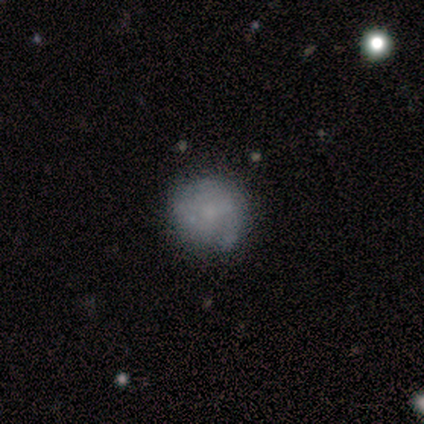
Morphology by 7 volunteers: This is likely a smooth galaxy (71%). How rounded: clearly round (80%). Merging: clearly none (83%).